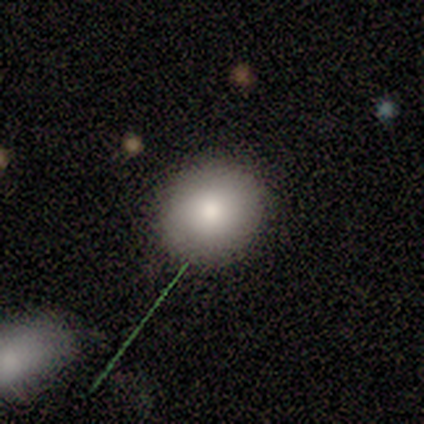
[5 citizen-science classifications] A smooth galaxy with no disk features (80%) that is round (75%). Merging: none (100%).